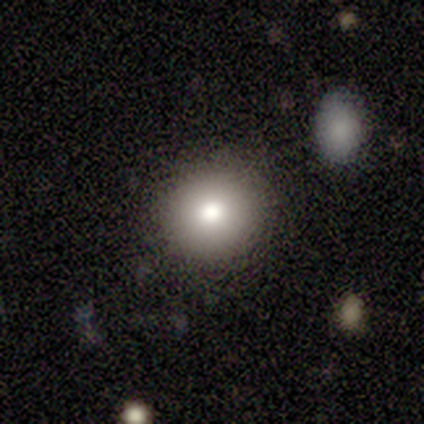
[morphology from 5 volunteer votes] A smooth galaxy with no disk features (80%) that is round (100%).

Vote fractions:
- Smooth or featured? smooth: 80% / featured or disk: 20% / star or artifact: 0%
- How rounded? round: 100% / in between: 0% / cigar-shaped: 0%
- Merging? none: 100% / minor disturbance: 0% / major disturbance: 0% / merger: 0%